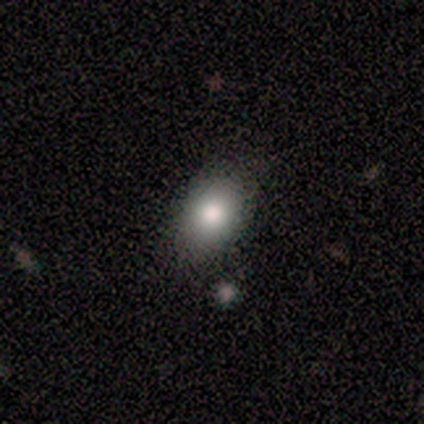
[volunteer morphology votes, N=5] A smooth galaxy with no disk features (60%) that is in between round and cigar-shaped (67%).

Vote fractions:
- Smooth or featured? smooth: 60% / star or artifact: 40% / featured or disk: 0%
- How rounded? in between: 67% / cigar-shaped: 33% / round: 0%
- Merging? none: 67% / minor disturbance: 33% / major disturbance: 0% / merger: 0%